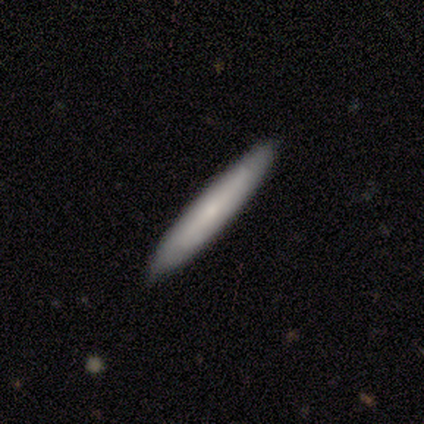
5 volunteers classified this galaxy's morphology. Volunteers were most divided on "smooth or featured": smooth: 80%, featured or disk: 20%, star or artifact: 0%. More confident: how rounded — cigar-shaped (100%); merging — none (100%).